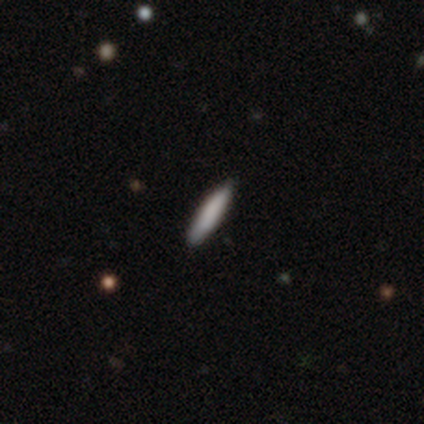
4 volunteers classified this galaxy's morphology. Smooth or featured? 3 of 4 (75%) said smooth. How rounded? 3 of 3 (100%) said cigar-shaped. Merging? 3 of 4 (75%) said none.